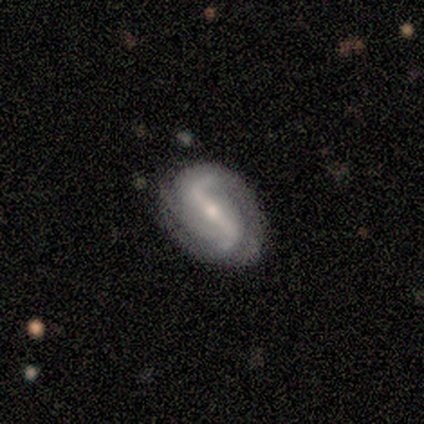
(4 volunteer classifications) smooth-or-featured: featured or disk: 75% | smooth: 25% | star or artifact: 0%
  disk-edge-on: no: 100% | yes: 0%
    bar: strong: 100% | weak: 0% | no: 0%
    has-spiral-arms: yes: 100% | no: 0%
      spiral-winding: loose: 100% | tight: 0% | medium: 0%
      spiral-arm-count: 2: 100% | 1: 0% | 3: 0% | 4: 0% | more than 4: 0% | can't tell: 0%
    bulge-size: small: 67% | moderate: 33% | dominant: 0% | large: 0% | none: 0%
  merging: none: 50% (tied) | minor disturbance: 50% (tied) | major disturbance: 0% | merger: 0%